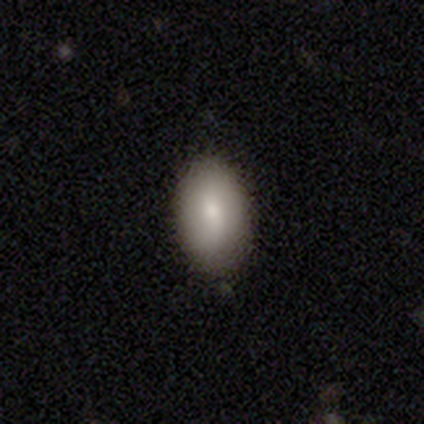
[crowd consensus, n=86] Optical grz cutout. It shows a smooth galaxy with no disk features (81%) that is in between round and cigar-shaped (96%). Merging: none (80%).